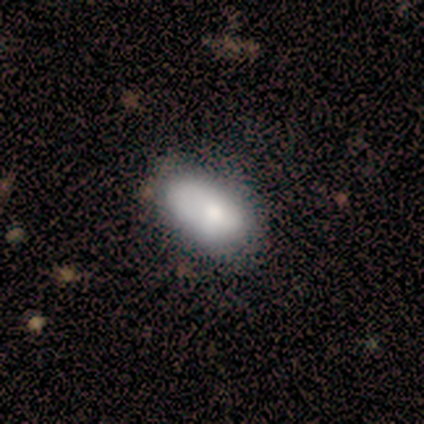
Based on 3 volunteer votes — Smooth or featured?
  - smooth: 67% *
  - featured or disk: 33%
  - star or artifact: 0%
How rounded?
  - round: 50% * (tied)
  - in between: 50% * (tied)
  - cigar-shaped: 0%
Merging?
  - minor disturbance: 67% *
  - major disturbance: 33%
  - none: 0%
  - merger: 0%